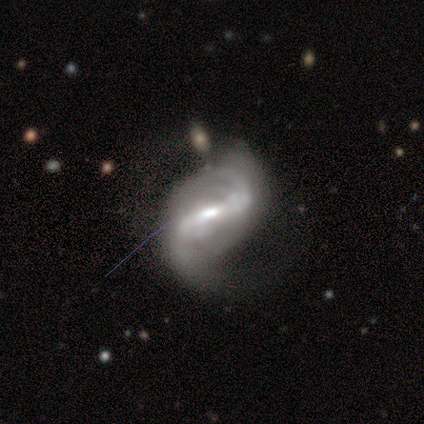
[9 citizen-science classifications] smooth-or-featured: featured or disk: 100% | smooth: 0% | star or artifact: 0%
  disk-edge-on: no: 100% | yes: 0%
    bar: strong: 89% | weak: 11% | no: 0%
    has-spiral-arms: yes: 100% | no: 0%
      spiral-winding: medium: 44% (tied) | loose: 44% (tied) | tight: 11%
      spiral-arm-count: 2: 89% | can't tell: 11% | 1: 0% | 3: 0% | 4: 0% | more than 4: 0%
    bulge-size: small: 56% | moderate: 44% | dominant: 0% | large: 0% | none: 0%
  merging: none: 67% | minor disturbance: 22% | major disturbance: 11% | merger: 0%